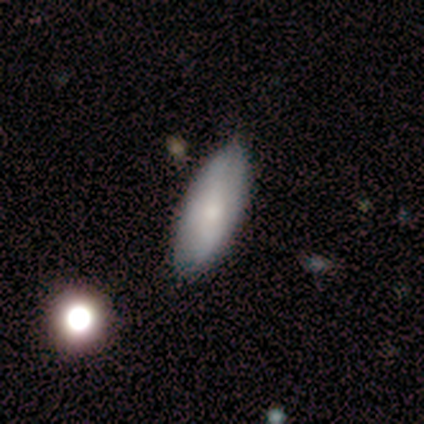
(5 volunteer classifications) smooth 100%, featured or disk 0%, star or artifact 0%. Down the decision tree: how rounded — in between (100%); merging — none (100%).